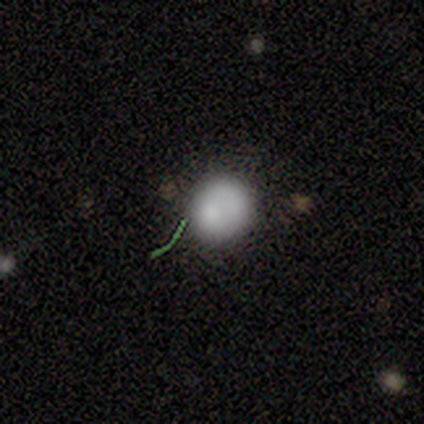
smooth-or-featured: smooth: 60% | star or artifact: 40% | featured or disk: 0%
  how-rounded: round: 100% | in between: 0% | cigar-shaped: 0%
  merging: none: 100% | minor disturbance: 0% | major disturbance: 0% | merger: 0%